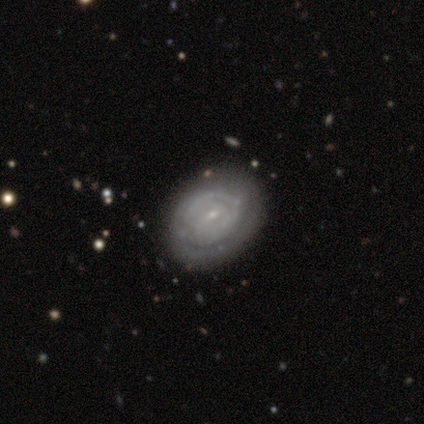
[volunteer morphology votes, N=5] Smooth or featured? featured or disk (60%)
Edge-on disk? no (100%)
Bar? no (100%)
Spiral arms? yes (67%)
Spiral winding? tight (50%, tied with medium)
Spiral arm count? 2 (100%)
Bulge size? small (100%)
Merging? none (100%)